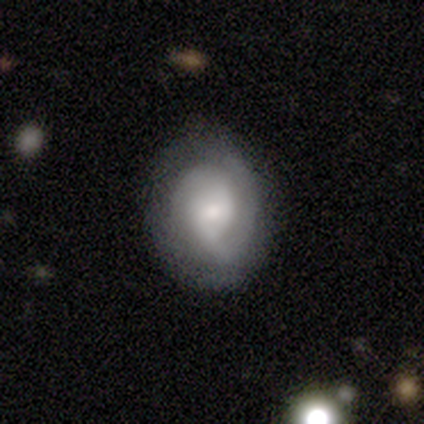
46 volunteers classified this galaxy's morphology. Smooth or featured? 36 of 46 (78%) said featured or disk. Edge-on disk? 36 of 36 (100%) said no. Bar? 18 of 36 (50%) said no. Spiral arms? 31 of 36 (86%) said yes. Spiral winding? 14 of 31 (45%) said tight. Spiral arm count? 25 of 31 (81%) said 2. Bulge size? 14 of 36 (39%) said moderate. Merging? 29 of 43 (67%) said none.